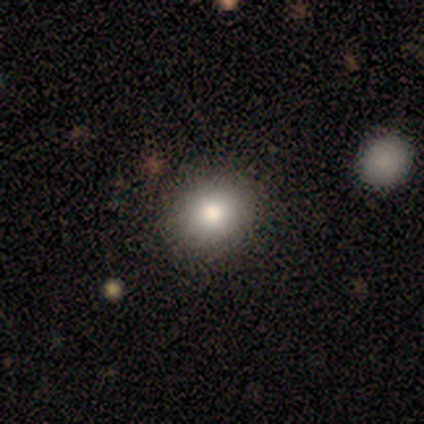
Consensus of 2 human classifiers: This is possibly a smooth galaxy (50%, tied with featured or disk). How rounded: clearly in between (100%). Merging: clearly none (100%).